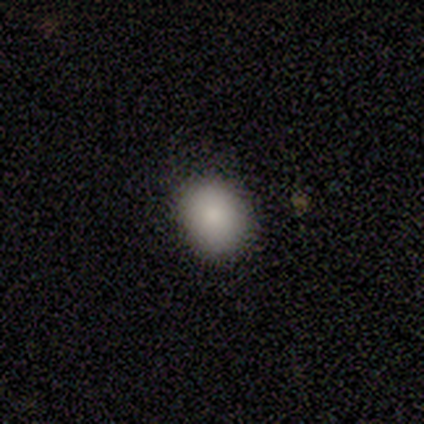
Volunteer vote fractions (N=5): Smooth or featured?
  - smooth: 100% *
  - featured or disk: 0%
  - star or artifact: 0%
How rounded?
  - round: 60% *
  - in between: 40%
  - cigar-shaped: 0%
Merging?
  - none: 80% *
  - minor disturbance: 20%
  - major disturbance: 0%
  - merger: 0%